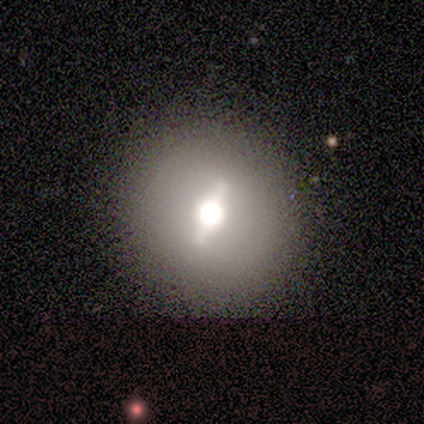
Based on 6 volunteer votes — A featured or disk galaxy (83%) with a strong bar (67%), no spiral arms (100%) and a large central bulge (67%). Merging: none (83%).